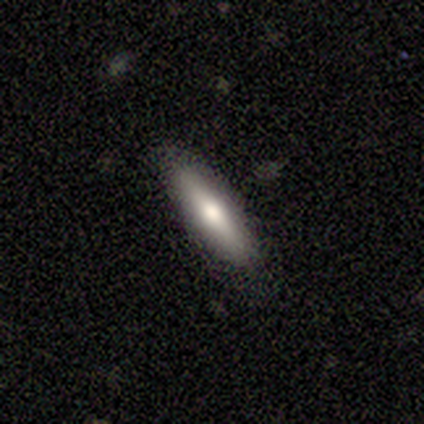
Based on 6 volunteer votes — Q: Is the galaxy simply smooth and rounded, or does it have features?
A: smooth — 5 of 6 (83%).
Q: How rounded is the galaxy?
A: cigar-shaped — 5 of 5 (100%).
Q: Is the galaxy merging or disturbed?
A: none — 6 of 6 (100%).